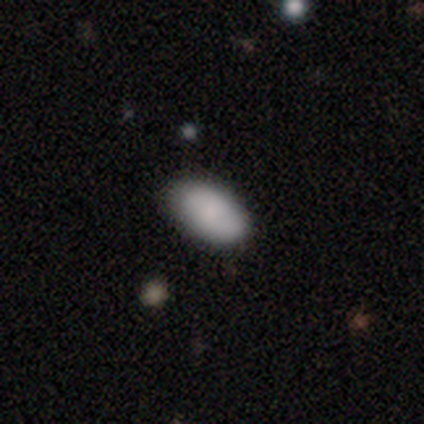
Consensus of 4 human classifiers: smooth_or_featured: smooth (p=1.00)
how_rounded: in between (p=0.75) [alt: round p=0.25]
merging: none (p=0.50) [tied with: minor disturbance p=0.50]